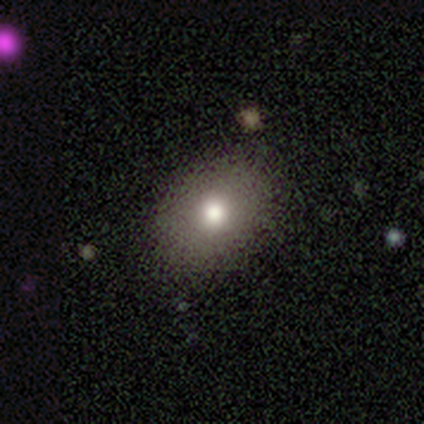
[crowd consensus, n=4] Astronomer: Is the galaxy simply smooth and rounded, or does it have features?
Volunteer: smooth — 75%.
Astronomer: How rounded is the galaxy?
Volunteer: in between — 100%.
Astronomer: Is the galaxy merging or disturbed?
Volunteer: none — 100%.